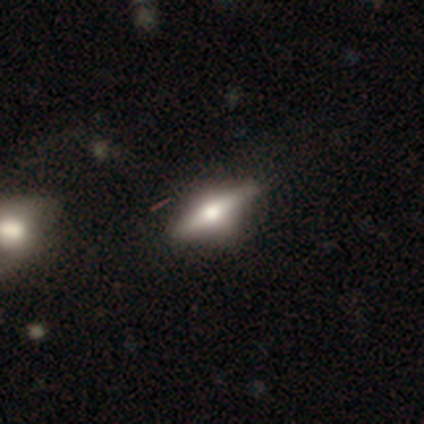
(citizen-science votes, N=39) A featured or disk galaxy (64%) viewed edge-on (96%) with a rounded central bulge (88%).

Vote fractions:
- Smooth or featured? featured or disk: 64% / smooth: 31% / star or artifact: 5%
- Edge-on disk? yes: 96% / no: 4%
- Edge-on bulge? rounded: 88% / boxy: 12% / none: 0%
- Merging? none: 76% / minor disturbance: 19% / major disturbance: 3% / merger: 3%